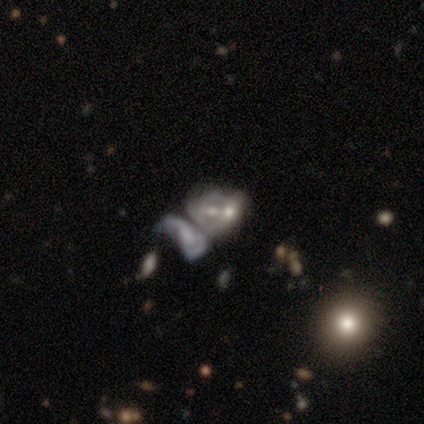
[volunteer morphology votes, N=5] type=featured or disk (60%); edge-on=no (100%); bar=no (67%); spiral arms=no (67%); bulge=small (67%); merging=merger (67%).